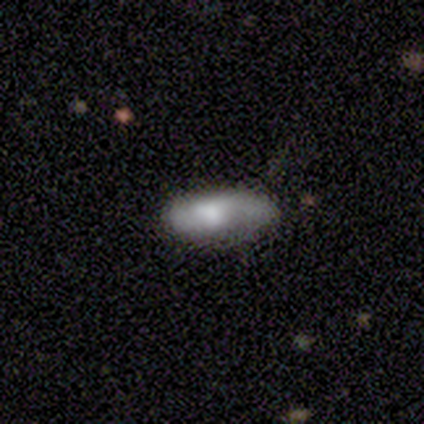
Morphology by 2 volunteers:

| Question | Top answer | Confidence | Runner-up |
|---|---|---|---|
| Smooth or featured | smooth | 50% | tied: featured or disk (50%) |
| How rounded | in between | 100% | — |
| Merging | none | 100% | — |